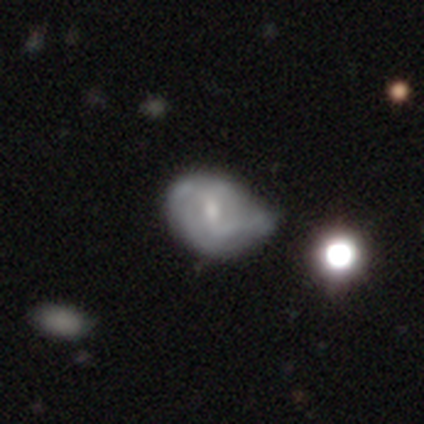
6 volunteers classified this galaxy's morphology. smooth-or-featured: featured or disk: 83% | smooth: 17% | star or artifact: 0%
  disk-edge-on: no: 100% | yes: 0%
    bar: strong: 40% (tied) | no: 40% (tied) | weak: 20%
    has-spiral-arms: yes: 80% | no: 20%
      spiral-winding: medium: 50% | tight: 25% | loose: 25%
      spiral-arm-count: 2: 75% | can't tell: 25% | 1: 0% | 3: 0% | 4: 0% | more than 4: 0%
    bulge-size: moderate: 60% | dominant: 20% | small: 20% | large: 0% | none: 0%
  merging: major disturbance: 50% | minor disturbance: 33% | none: 17% | merger: 0%